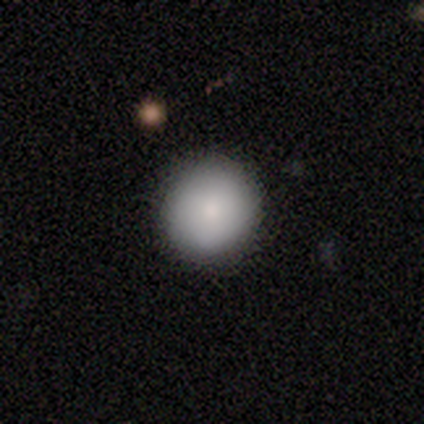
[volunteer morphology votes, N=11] smooth 82%, featured or disk 9%, star or artifact 9%. Down the decision tree: how rounded — round (89%); merging — none (80%).